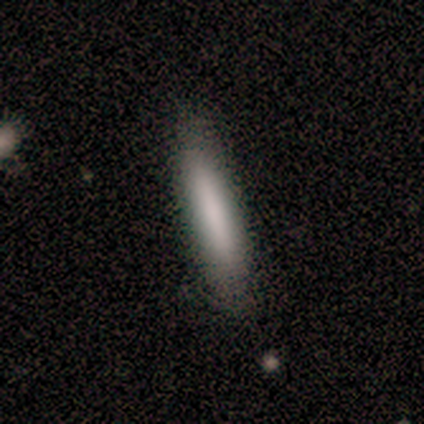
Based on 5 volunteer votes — Smooth or featured?
  - smooth: 80% *
  - star or artifact: 20%
  - featured or disk: 0%
How rounded?
  - cigar-shaped: 100% *
  - round: 0%
  - in between: 0%
Merging?
  - none: 100% *
  - minor disturbance: 0%
  - major disturbance: 0%
  - merger: 0%